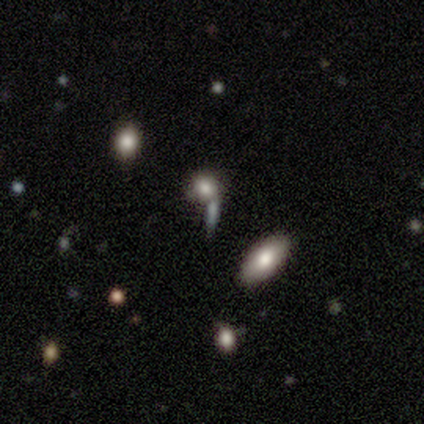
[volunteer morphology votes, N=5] Smooth or featured?
  - smooth: 80% *
  - star or artifact: 20%
  - featured or disk: 0%
How rounded?
  - round: 50% * (tied)
  - cigar-shaped: 50% * (tied)
  - in between: 0%
Merging?
  - none: 100% *
  - minor disturbance: 0%
  - major disturbance: 0%
  - merger: 0%